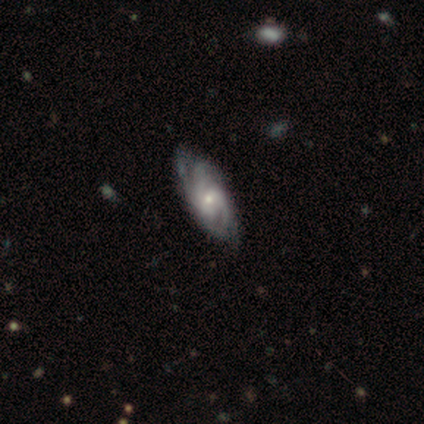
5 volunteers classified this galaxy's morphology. This is clearly a featured or disk galaxy (100%). It is clearly not viewed edge-on (100%). Bar: likely no (60%). Spiral arm pattern: clearly yes (100%). Spiral arm count: marginally can't tell (40%). Spiral winding: marginally tight (40%, tied with medium). Central bulge: likely small (60%). Merging: likely none (60%).